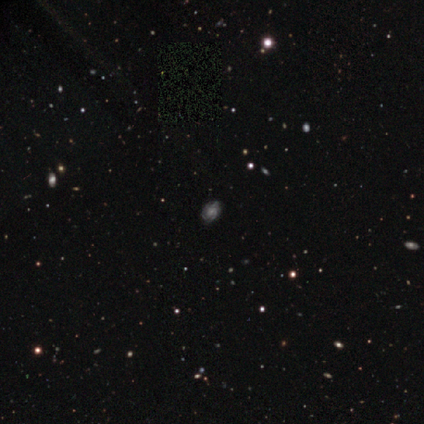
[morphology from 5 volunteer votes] Smooth or featured? featured or disk (100%)
Edge-on disk? no (100%)
Bar? no (80%)
Spiral arms? yes (100%)
Spiral winding? medium (60%)
Spiral arm count? 3 (40%)
Bulge size? moderate (60%)
Merging? none (80%)